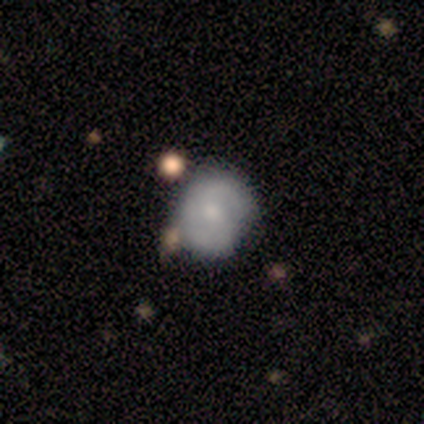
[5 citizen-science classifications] Q: Smooth or featured?
A: smooth (60%); runner-up: featured or disk (40%)
Q: How rounded?
A: round (67%); runner-up: in between (33%)
Q: Merging?
A: none (80%); runner-up: minor disturbance (20%)